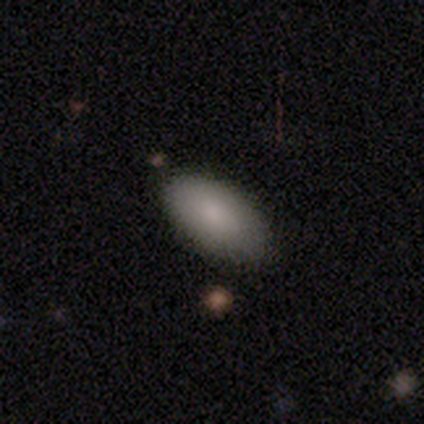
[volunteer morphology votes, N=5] A smooth galaxy with no disk features (100%) that is in between round and cigar-shaped (100%).

Vote fractions:
- Smooth or featured? smooth: 100% / featured or disk: 0% / star or artifact: 0%
- How rounded? in between: 100% / round: 0% / cigar-shaped: 0%
- Merging? none: 80% / minor disturbance: 20% / major disturbance: 0% / merger: 0%